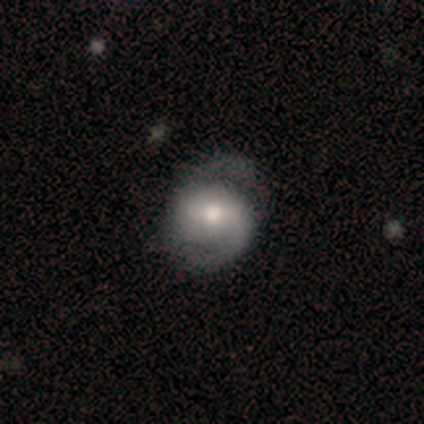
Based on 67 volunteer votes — A featured or disk galaxy (73%) with no bar (40%), 2 (93%) medium (57%) spiral arms (96%) and a moderate central bulge (52%). Merging: none (58%).